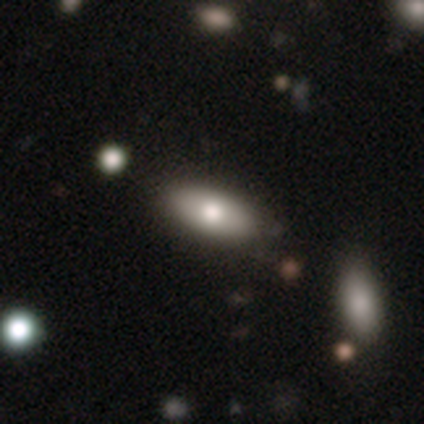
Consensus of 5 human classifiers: Volunteers were most divided on "smooth or featured": smooth: 80%, featured or disk: 20%, star or artifact: 0%. More confident: how rounded — in between (100%); merging — none (80%).